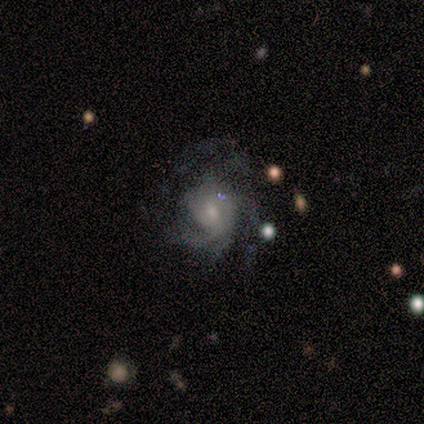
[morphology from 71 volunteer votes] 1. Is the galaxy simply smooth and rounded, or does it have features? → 80% featured or disk, 13% smooth, 7% star or artifact.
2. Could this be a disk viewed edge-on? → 100% no, 0% yes.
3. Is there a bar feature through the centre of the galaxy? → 75% no, 23% weak, 2% strong.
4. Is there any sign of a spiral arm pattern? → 96% yes, 4% no.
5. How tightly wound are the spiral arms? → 42% medium, 35% tight, 24% loose.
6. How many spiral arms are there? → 38% can't tell, 20% 3, 18% 2, 9% 1, 7% 4, 7% more than 4.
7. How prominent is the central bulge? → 67% small, 23% moderate, 5% large, 5% none, 0% dominant.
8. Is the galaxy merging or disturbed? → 48% none, 24% major disturbance, 23% minor disturbance, 5% merger.